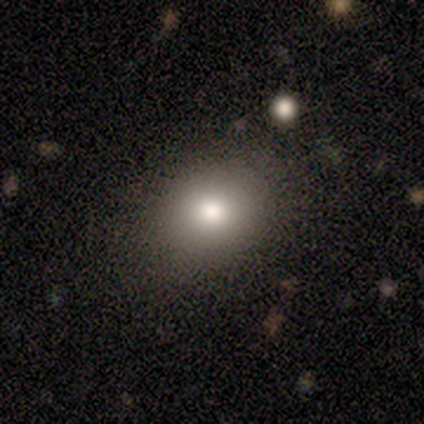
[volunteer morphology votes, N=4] This appears to be a smooth galaxy with no disk features (75%) that is round (100%). Merging: none (75%).